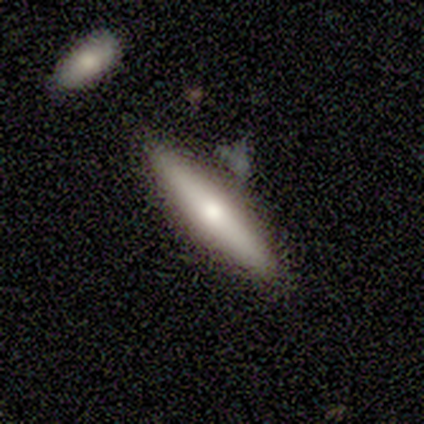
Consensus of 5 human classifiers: Smooth or featured: featured or disk — 60% (smooth — 40%)
Edge-on disk: yes — 100%
Edge-on bulge: rounded — 100%
Merging: none — 80% (major disturbance — 20%)